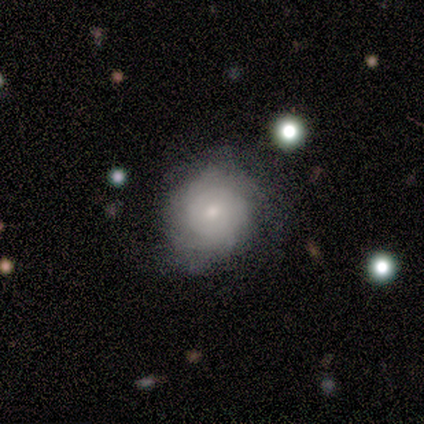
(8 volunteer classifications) Smooth or featured? 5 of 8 (62%) said featured or disk. Edge-on disk? 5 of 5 (100%) said no. Bar? 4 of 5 (80%) said no. Spiral arms? 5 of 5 (100%) said yes. Spiral winding? 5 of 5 (100%) said tight. Spiral arm count? 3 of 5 (60%) said can't tell. Bulge size? 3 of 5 (60%) said small. Merging? 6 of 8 (75%) said none.